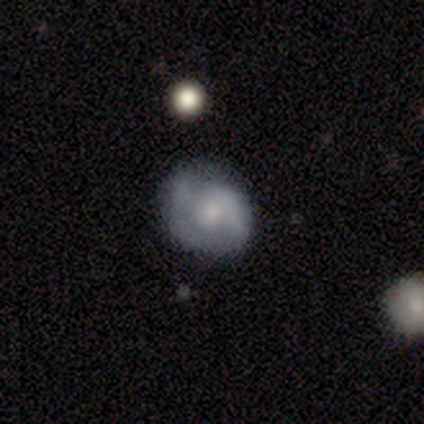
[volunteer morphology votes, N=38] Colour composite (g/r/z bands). It shows a smooth galaxy with no disk features (50%) that is round (84%). Merging: none (57%).